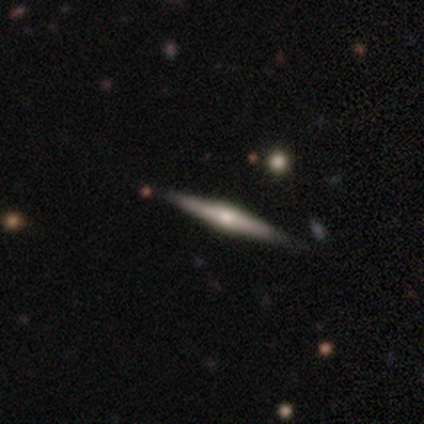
Overall: featured or disk (100%). Edge-on disk: yes (80%). Edge-on bulge: rounded (75%). Merging: none (80%).